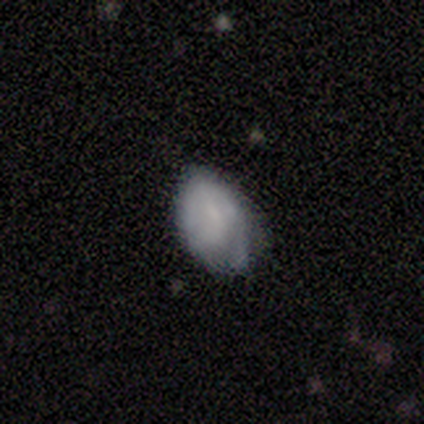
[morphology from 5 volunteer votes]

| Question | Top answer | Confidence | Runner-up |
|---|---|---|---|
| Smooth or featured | smooth | 80% | featured or disk (20%) |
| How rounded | in between | 100% | — |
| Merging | none | 40% | tied: minor disturbance (40%) |